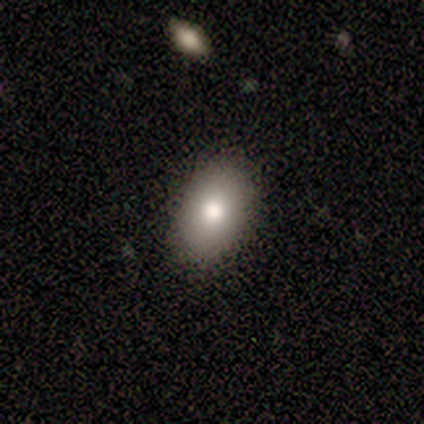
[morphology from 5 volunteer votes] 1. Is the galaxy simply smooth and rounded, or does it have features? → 60% smooth, 20% featured or disk, 20% star or artifact.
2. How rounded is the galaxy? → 100% in between, 0% round, 0% cigar-shaped.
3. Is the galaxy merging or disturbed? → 100% none, 0% minor disturbance, 0% major disturbance, 0% merger.